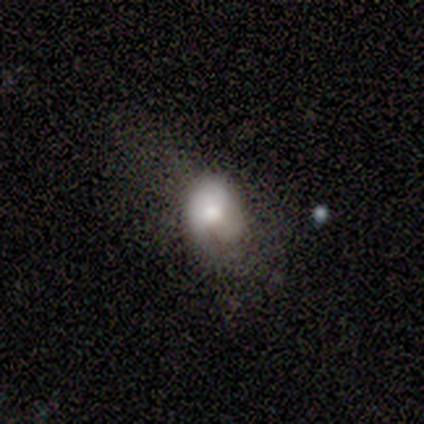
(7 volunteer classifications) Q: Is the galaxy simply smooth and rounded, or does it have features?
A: smooth — 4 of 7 (57%).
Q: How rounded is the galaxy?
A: in between — 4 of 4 (100%).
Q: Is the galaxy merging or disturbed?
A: major disturbance — 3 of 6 (50%).